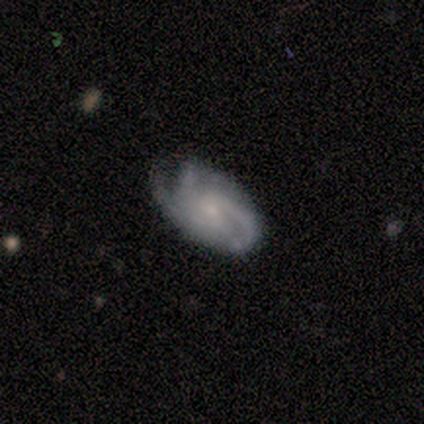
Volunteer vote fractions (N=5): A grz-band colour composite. It shows a featured or disk galaxy (100%) with a weak bar (40%, tied with no), 3 (80%) tight (40%, tied with medium) spiral arms (100%) and a small central bulge (80%). Merging: none (100%).